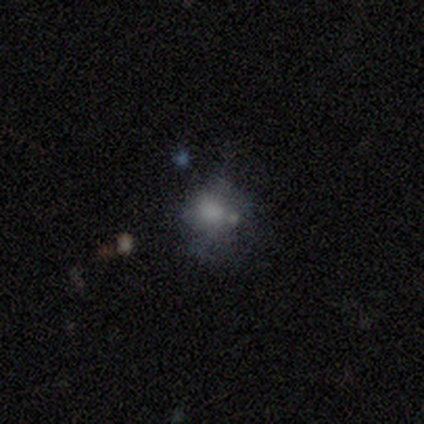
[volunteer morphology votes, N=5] A smooth galaxy with no disk features (60%) that is in between round and cigar-shaped (67%). Merging: merger (75%).